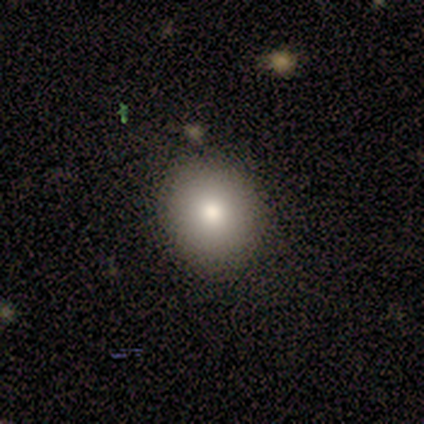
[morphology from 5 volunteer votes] type=smooth (100%); roundness=round (80%); merging=none (100%).